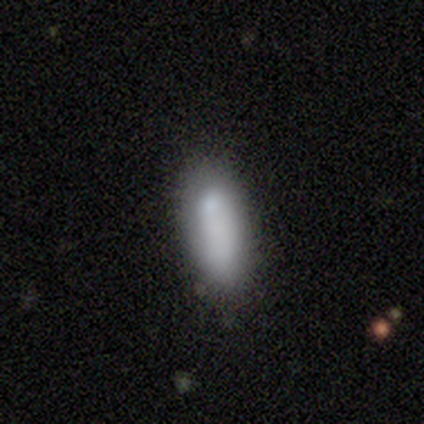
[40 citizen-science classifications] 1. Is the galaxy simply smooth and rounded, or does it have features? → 78% smooth, 12% featured or disk, 10% star or artifact.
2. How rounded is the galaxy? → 61% in between, 39% cigar-shaped, 0% round.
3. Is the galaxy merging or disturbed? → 72% none, 17% minor disturbance, 8% major disturbance, 3% merger.